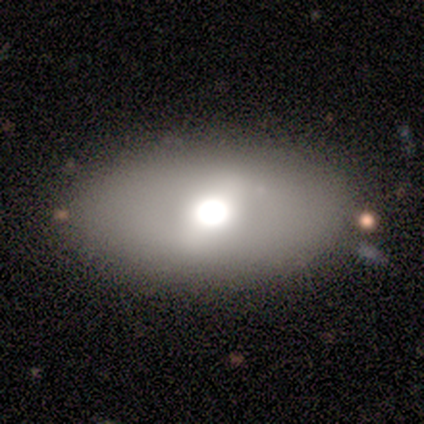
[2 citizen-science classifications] A smooth galaxy with no disk features (50%, tied with featured or disk) that is round (100%).

Vote fractions:
- Smooth or featured? smooth: 50% (tied) / featured or disk: 50% (tied) / star or artifact: 0%
- How rounded? round: 100% / in between: 0% / cigar-shaped: 0%
- Merging? none: 100% / minor disturbance: 0% / major disturbance: 0% / merger: 0%